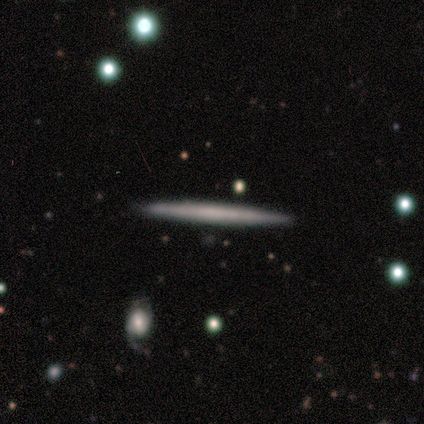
This appears to be a featured or disk galaxy (60%) viewed edge-on (100%) with no central bulge (67%). Merging: none (100%).